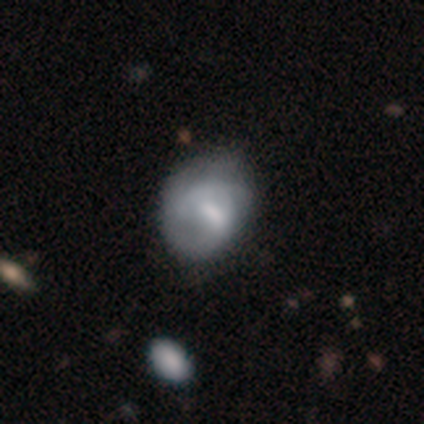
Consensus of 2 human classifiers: smooth_or_featured: smooth (p=1.00)
how_rounded: in between (p=1.00)
merging: minor disturbance (p=0.50) [tied with: major disturbance p=0.50]